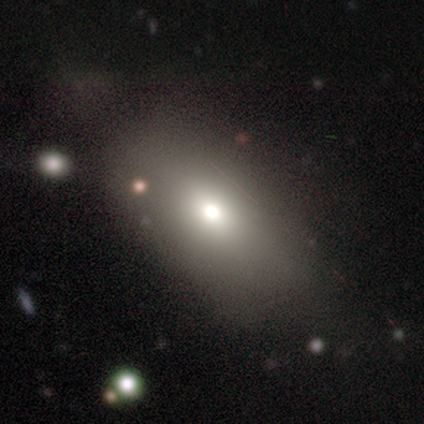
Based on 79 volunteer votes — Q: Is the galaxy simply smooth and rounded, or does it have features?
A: smooth — 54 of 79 (68%).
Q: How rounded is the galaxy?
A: in between — 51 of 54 (94%).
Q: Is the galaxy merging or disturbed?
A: none — 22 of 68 (32%).